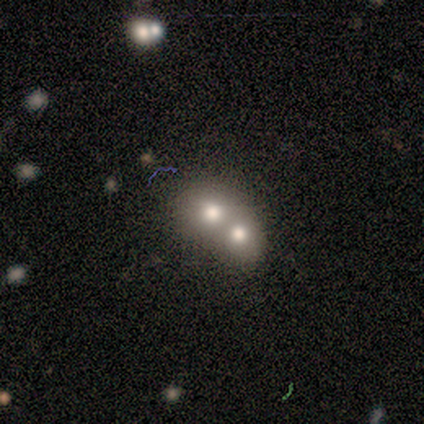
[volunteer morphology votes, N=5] smooth 40% (tied), featured or disk 40% (tied), star or artifact 20%. Down the decision tree: how rounded — in between (100%); merging — merger (75%).